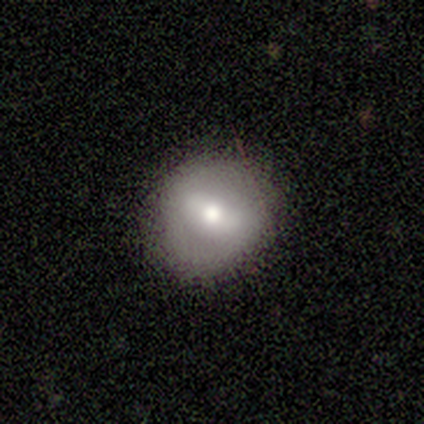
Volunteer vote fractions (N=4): This is clearly a smooth galaxy (100%). How rounded: likely round (75%). Merging: clearly none (100%).